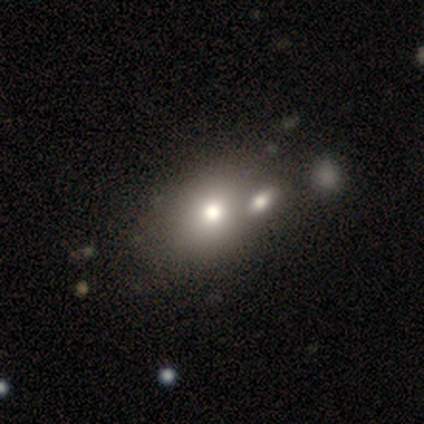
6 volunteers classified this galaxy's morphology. Smooth or featured? smooth (50%, tied with star or artifact)
How rounded? in between (67%)
Merging? none (67%)